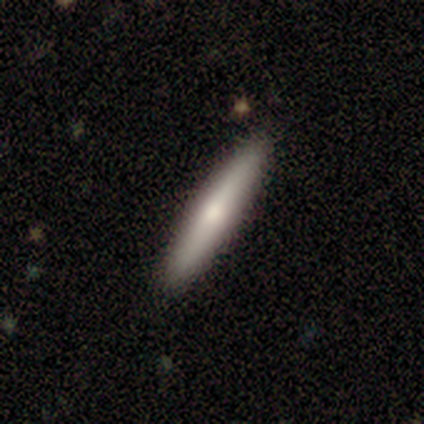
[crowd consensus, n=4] smooth-or-featured: smooth: 50% (tied) | featured or disk: 50% (tied) | star or artifact: 0%
  how-rounded: cigar-shaped: 100% | round: 0% | in between: 0%
  merging: none: 75% | minor disturbance: 25% | major disturbance: 0% | merger: 0%